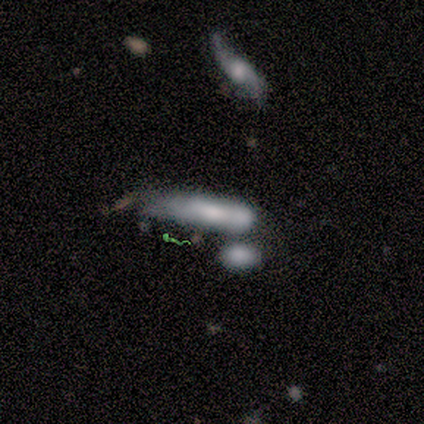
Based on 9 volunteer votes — A smooth galaxy with no disk features (67%) that is cigar-shaped (67%). Merging: none (44%, tied with merger).